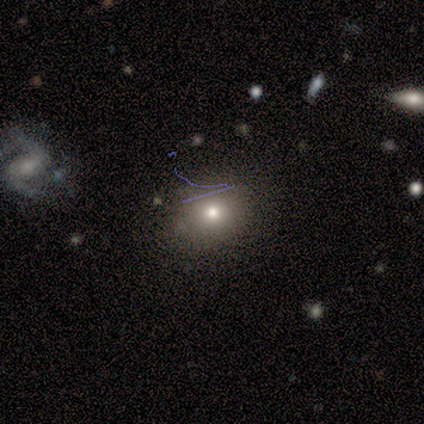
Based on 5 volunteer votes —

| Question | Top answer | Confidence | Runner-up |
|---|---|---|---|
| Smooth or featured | smooth | 60% | featured or disk (20%) |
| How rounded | round | 100% | — |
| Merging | none | 100% | — |